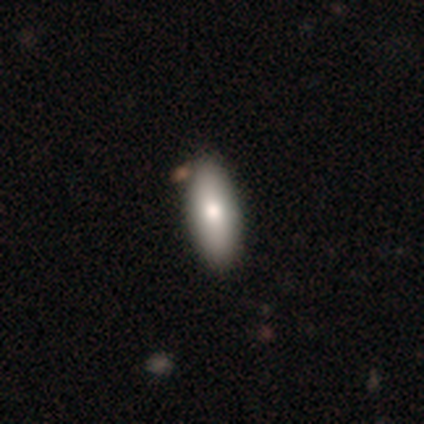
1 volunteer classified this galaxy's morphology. Q: Smooth or featured?
A: smooth (100%)
Q: How rounded?
A: in between (100%)
Q: Merging?
A: none (100%)